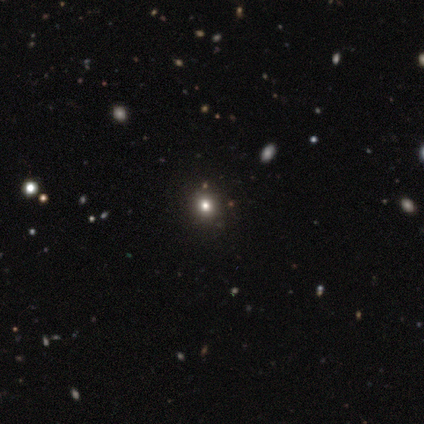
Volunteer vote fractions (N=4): Smooth or featured? smooth (75%)
How rounded? round (100%)
Merging? none (100%)